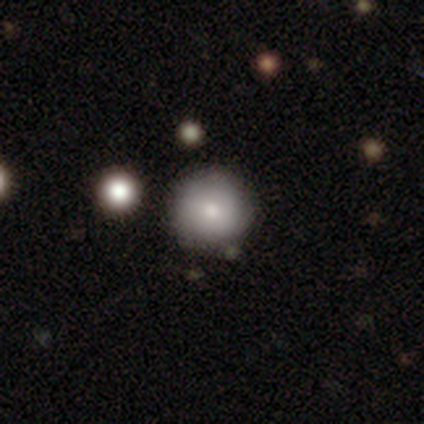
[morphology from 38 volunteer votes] Overall: smooth (82%). How rounded: round (100%). Merging: none (65%).